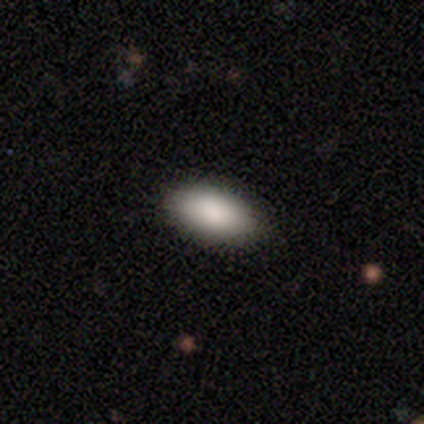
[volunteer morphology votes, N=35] This is clearly a smooth galaxy (91%). How rounded: clearly in between (94%). Merging: clearly none (94%).